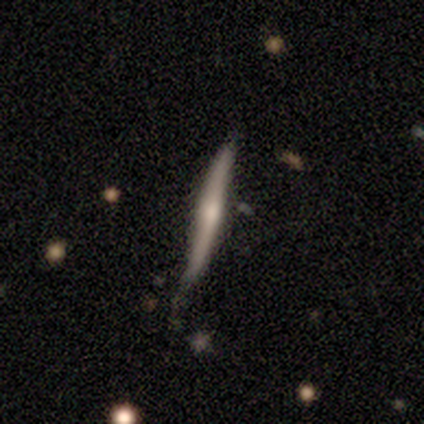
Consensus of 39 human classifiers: Morphology: type=featured or disk (54%); edge-on=yes (86%); edge-on bulge=rounded (61%); merging=none (69%).